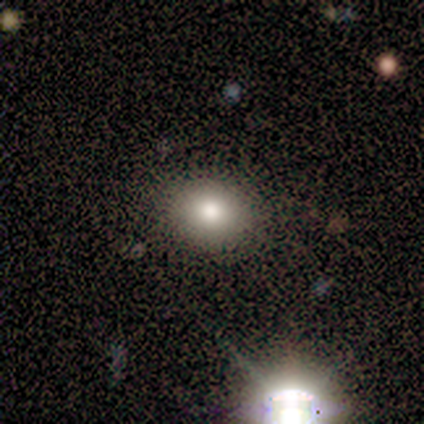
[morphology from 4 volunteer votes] This appears to be a smooth galaxy with no disk features (100%) that is round (50%, tied with in between). Merging: none (100%).